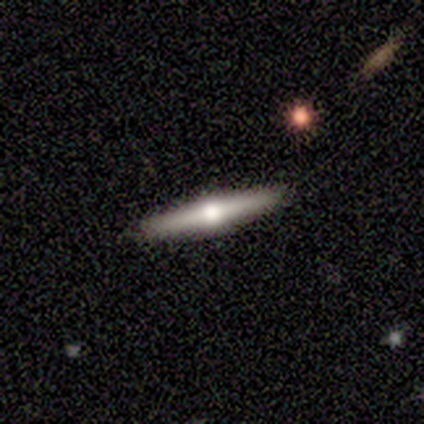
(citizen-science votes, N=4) Overall: featured or disk (100%). Edge-on disk: yes (100%). Edge-on bulge: rounded (100%). Merging: none (100%).